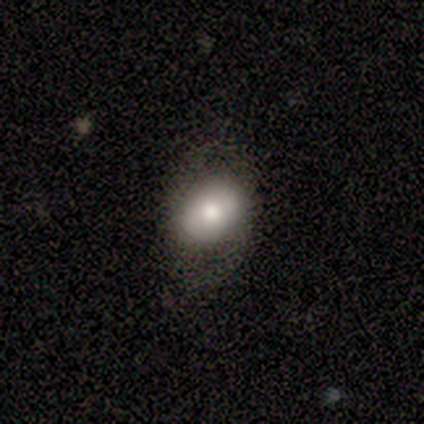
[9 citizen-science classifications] This is clearly a smooth galaxy (89%). How rounded: clearly in between (88%). Merging: clearly none (89%).